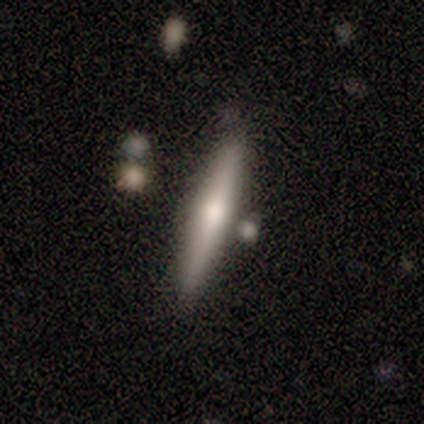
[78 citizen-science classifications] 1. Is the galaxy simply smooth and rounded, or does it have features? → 58% smooth, 38% featured or disk, 4% star or artifact.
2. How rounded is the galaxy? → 98% cigar-shaped, 2% in between, 0% round.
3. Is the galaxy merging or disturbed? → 51% none, 11% merger, 5% minor disturbance, 0% major disturbance.